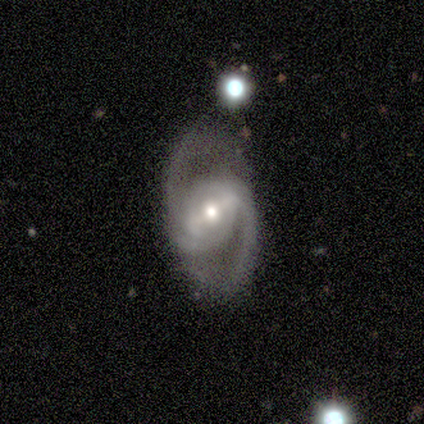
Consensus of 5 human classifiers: Smooth or featured? featured or disk (100%)
Edge-on disk? no (100%)
Bar? strong (60%)
Spiral arms? yes (100%)
Spiral winding? medium (40%, tied with loose)
Spiral arm count? 2 (100%)
Bulge size? moderate (60%)
Merging? none (100%)